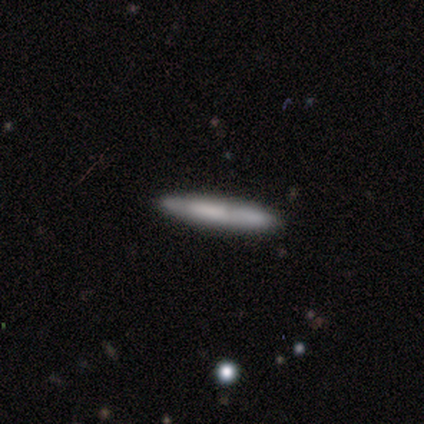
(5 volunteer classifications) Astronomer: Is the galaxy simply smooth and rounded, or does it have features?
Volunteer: smooth — 60% (runner-up: featured or disk, 40%).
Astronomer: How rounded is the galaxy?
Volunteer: cigar-shaped — 100%.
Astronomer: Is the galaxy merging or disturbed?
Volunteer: none — 80%.